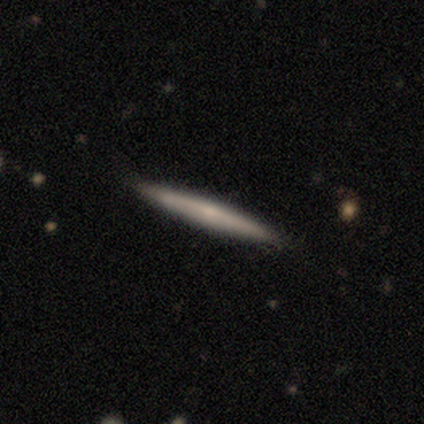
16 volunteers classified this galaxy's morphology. Smooth or featured? smooth (56%)
How rounded? cigar-shaped (89%)
Merging? none (81%)